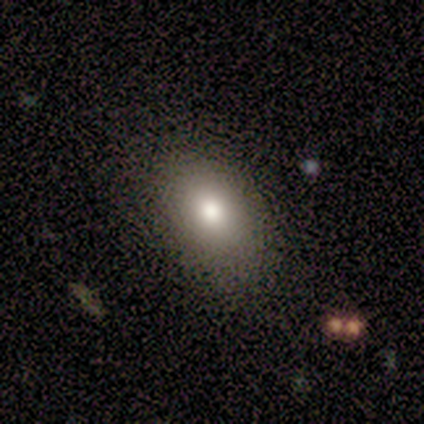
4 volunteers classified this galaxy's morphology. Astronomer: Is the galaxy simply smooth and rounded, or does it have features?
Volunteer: smooth — 100%.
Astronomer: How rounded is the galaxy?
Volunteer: round — 50%, tied with in between at 50%.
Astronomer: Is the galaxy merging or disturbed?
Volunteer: none — 100%.